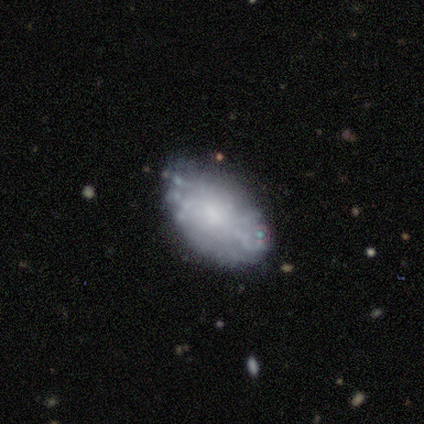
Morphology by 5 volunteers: This is likely a featured or disk galaxy (60%). It is clearly not viewed edge-on (100%). Bar: clearly no (100%). Spiral arm pattern: likely no (67%). Central bulge: likely none (67%). Merging: clearly none (100%).